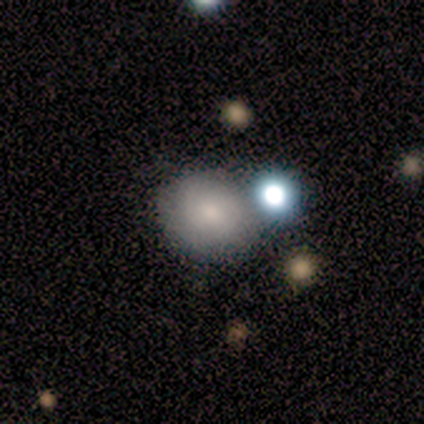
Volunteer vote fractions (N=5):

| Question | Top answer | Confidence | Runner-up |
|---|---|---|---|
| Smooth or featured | smooth | 80% | star or artifact (20%) |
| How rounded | round | 75% | in between (25%) |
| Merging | merger | 75% | minor disturbance (25%) |